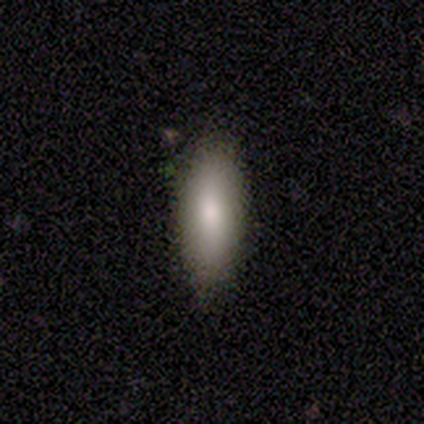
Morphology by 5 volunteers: A smooth galaxy with no disk features (100%) that is in between round and cigar-shaped (100%).

Vote fractions:
- Smooth or featured? smooth: 100% / featured or disk: 0% / star or artifact: 0%
- How rounded? in between: 100% / round: 0% / cigar-shaped: 0%
- Merging? none: 60% / minor disturbance: 40% / major disturbance: 0% / merger: 0%